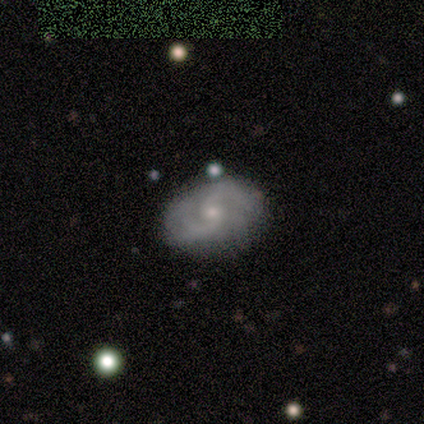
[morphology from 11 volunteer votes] This appears to be a featured or disk galaxy (55%) with no bar (83%), 2 (67%) tight (50%) spiral arms (100%) and a small central bulge (67%). Merging: none (80%).